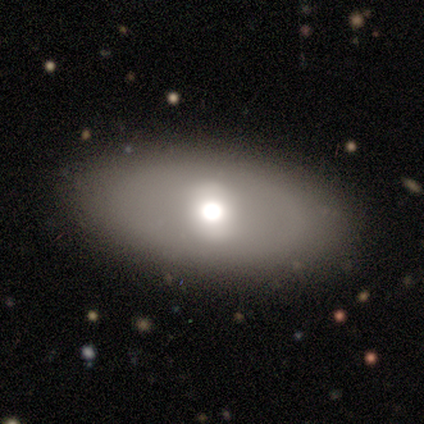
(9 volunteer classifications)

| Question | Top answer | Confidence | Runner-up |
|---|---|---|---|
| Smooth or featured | featured or disk | 67% | smooth (22%) |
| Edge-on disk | no | 100% | — |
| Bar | no | 83% | weak (17%) |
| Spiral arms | no | 83% | yes (17%) |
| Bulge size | moderate | 67% | large (33%) |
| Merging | none | 50% | minor disturbance (38%) |